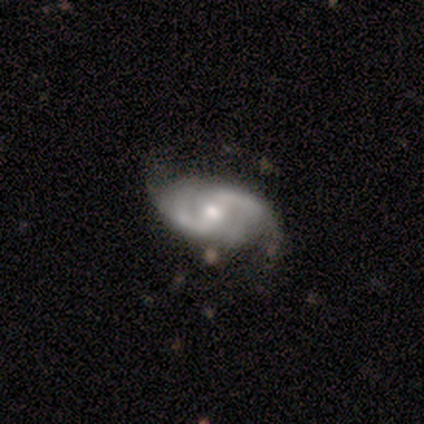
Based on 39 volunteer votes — featured or disk 90%, smooth 8%, star or artifact 3%. Down the decision tree: edge-on disk — no (97%); bar — weak (47%); spiral arms — yes (97%); spiral arm count — 2 (91%); spiral winding — medium (55%); bulge size — moderate (62%); merging — none (71%).